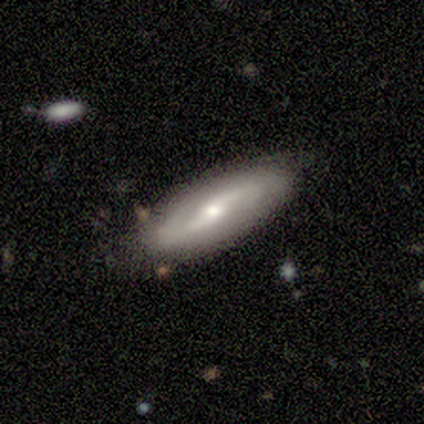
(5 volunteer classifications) featured or disk 100%, smooth 0%, star or artifact 0%. Down the decision tree: edge-on disk — no (100%); bar — weak (60%); spiral arms — yes (100%); spiral arm count — can't tell (60%); spiral winding — medium (40%, tied with loose); bulge size — moderate (80%); merging — none (100%).